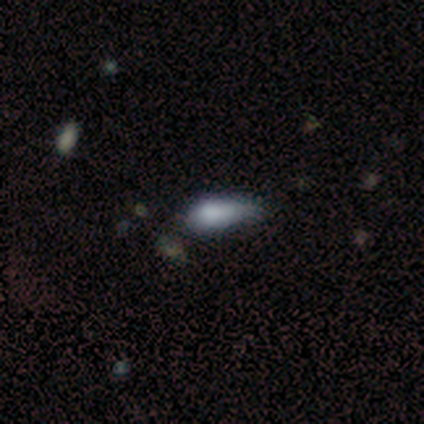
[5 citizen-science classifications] This is likely a smooth galaxy (60%). How rounded: clearly in between (100%). Merging: clearly minor disturbance (100%).